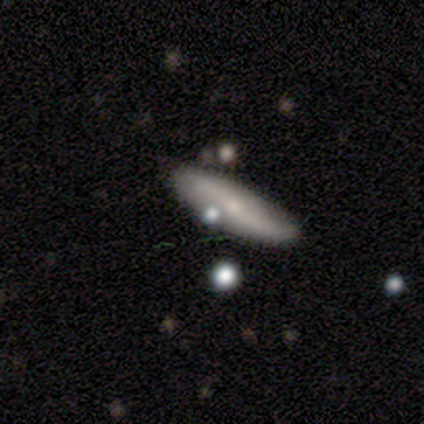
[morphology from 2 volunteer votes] smooth_or_featured: smooth (p=1.00)
how_rounded: in between (p=0.50) [tied with: cigar-shaped p=0.50]
merging: none (p=0.50) [tied with: major disturbance p=0.50]